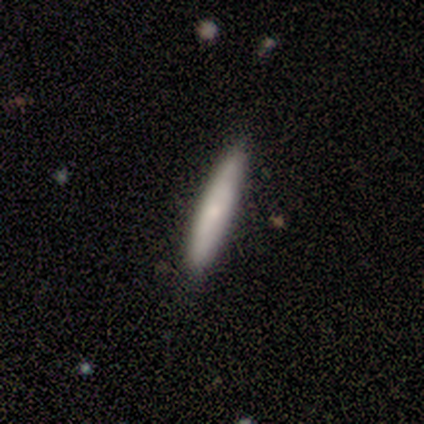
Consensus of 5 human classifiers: Smooth or featured?
  - smooth: 100% *
  - featured or disk: 0%
  - star or artifact: 0%
How rounded?
  - cigar-shaped: 100% *
  - round: 0%
  - in between: 0%
Merging?
  - none: 100% *
  - minor disturbance: 0%
  - major disturbance: 0%
  - merger: 0%